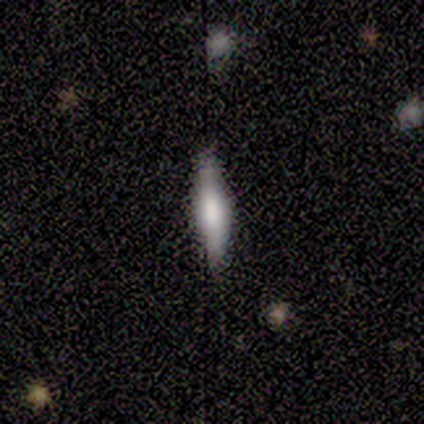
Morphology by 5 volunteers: smooth_or_featured: smooth (p=0.60) [alt: featured or disk p=0.40]
how_rounded: cigar-shaped (p=0.67) [alt: in between p=0.33]
merging: none (p=1.00)